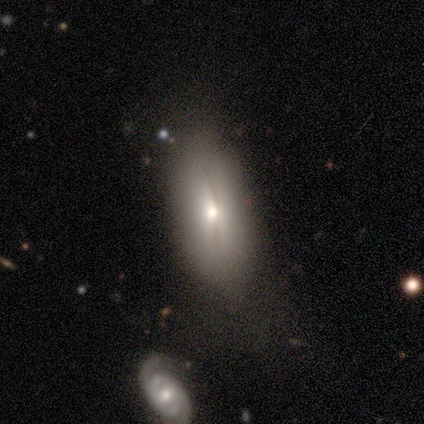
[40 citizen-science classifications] smooth-or-featured: smooth: 72% | featured or disk: 22% | star or artifact: 5%
  how-rounded: in between: 83% | cigar-shaped: 14% | round: 3%
  merging: none: 71% | minor disturbance: 13% | major disturbance: 13% | merger: 3%